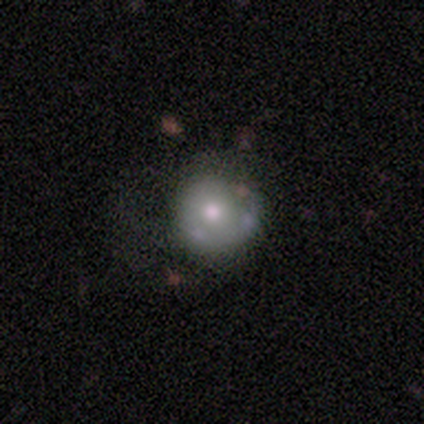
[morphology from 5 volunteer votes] Smooth or featured? featured or disk (80%)
Edge-on disk? no (100%)
Bar? no (100%)
Spiral arms? no (100%)
Bulge size? moderate (50%)
Merging? none (60%)